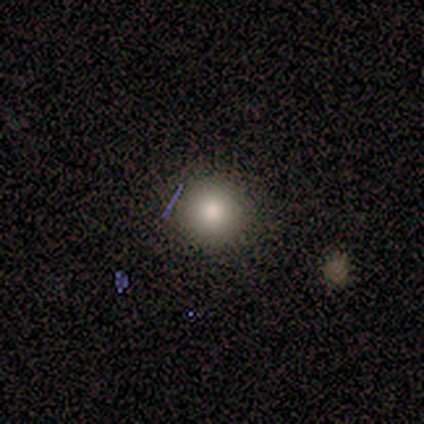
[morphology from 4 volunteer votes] Q: Smooth or featured?
A: smooth (75%); runner-up: star or artifact (25%)
Q: How rounded?
A: round (100%)
Q: Merging?
A: none (100%)